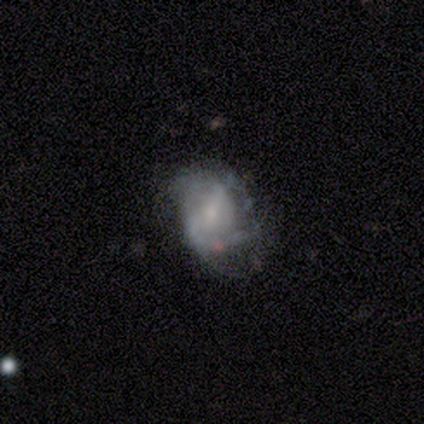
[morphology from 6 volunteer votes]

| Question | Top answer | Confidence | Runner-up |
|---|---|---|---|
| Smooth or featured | featured or disk | 67% | smooth (33%) |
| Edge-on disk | no | 100% | — |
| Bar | weak | 50% | tied: no (50%) |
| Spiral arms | yes | 75% | no (25%) |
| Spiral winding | tight | 33% | tied: medium (33%), loose (33%) |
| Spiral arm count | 2 | 67% | can't tell (33%) |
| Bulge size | small | 100% | — |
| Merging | none | 50% | minor disturbance (33%) |